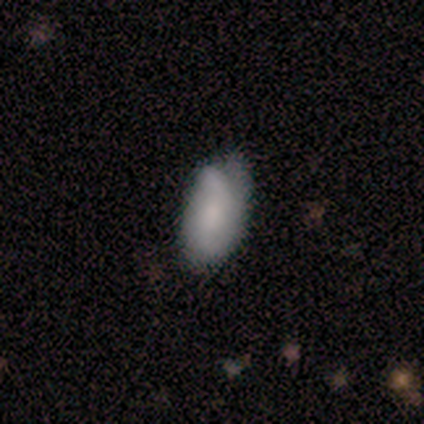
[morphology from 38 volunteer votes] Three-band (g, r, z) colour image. It shows a smooth galaxy with no disk features (63%) that is in between round and cigar-shaped (92%). Merging: none (42%).